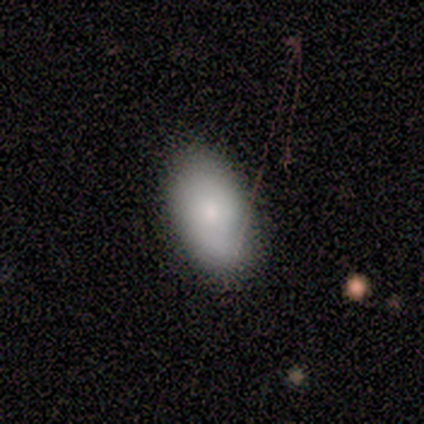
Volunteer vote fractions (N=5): Smooth or featured?
  - smooth: 80% *
  - star or artifact: 20%
  - featured or disk: 0%
How rounded?
  - in between: 100% *
  - round: 0%
  - cigar-shaped: 0%
Merging?
  - none: 100% *
  - minor disturbance: 0%
  - major disturbance: 0%
  - merger: 0%